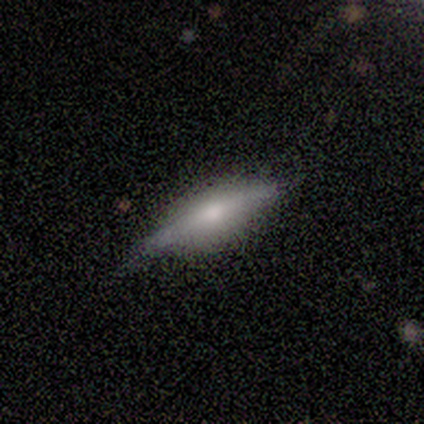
Overall: featured or disk (60%; smooth 40%). Edge-on disk: yes (100%). Edge-on bulge: rounded (67%; boxy 33%). Merging: none (100%).